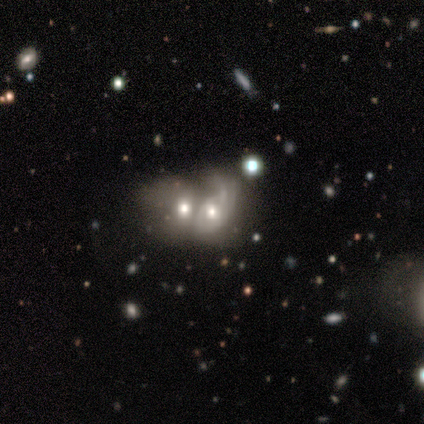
Q: Smooth or featured?
A: featured or disk (59%); runner-up: smooth (31%)
Q: Edge-on disk?
A: no (91%); runner-up: yes (9%)
Q: Bar?
A: no (90%); runner-up: weak (10%)
Q: Spiral arms?
A: yes (67%); runner-up: no (33%)
Q: Spiral winding?
A: medium (43%); tied with: loose (43%)
Q: Spiral arm count?
A: 1 (64%); runner-up: 2 (21%)
Q: Bulge size?
A: moderate (71%); runner-up: large (19%)
Q: Merging?
A: merger (86%); runner-up: none (6%)